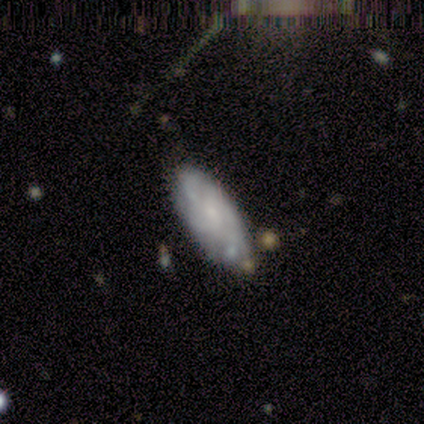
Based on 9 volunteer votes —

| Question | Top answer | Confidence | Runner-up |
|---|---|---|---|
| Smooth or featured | smooth | 44% | tied: featured or disk (44%) |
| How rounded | in between | 100% | — |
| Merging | none | 62% | minor disturbance (25%) |